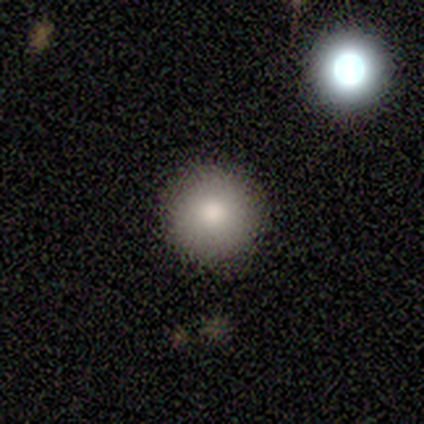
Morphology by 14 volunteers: Overall: smooth (86%). How rounded: round (100%). Merging: none (92%).